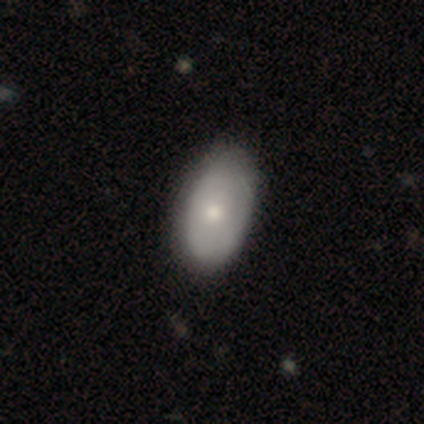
Smooth or featured? smooth (62%)
How rounded? in between (92%)
Merging? none (42%)